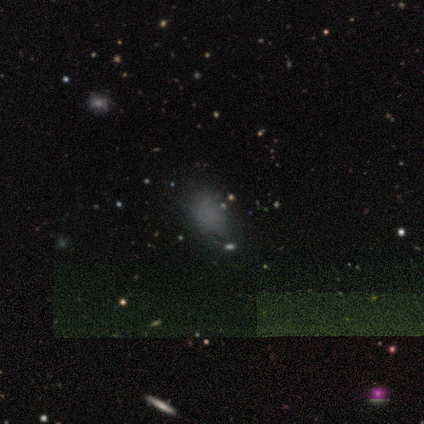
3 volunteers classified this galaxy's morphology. This appears to be a smooth galaxy with no disk features (100%) that is in between round and cigar-shaped (100%). Merging: none (100%).